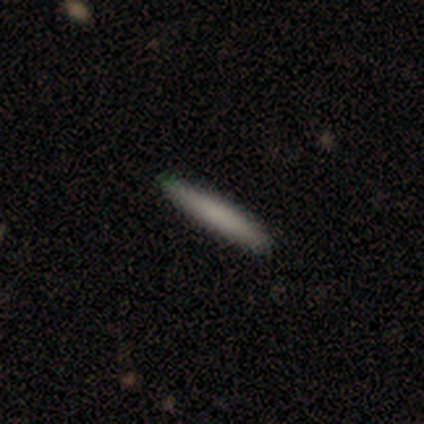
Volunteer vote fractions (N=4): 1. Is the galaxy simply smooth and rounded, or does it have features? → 75% smooth, 25% star or artifact, 0% featured or disk.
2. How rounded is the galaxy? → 100% cigar-shaped, 0% round, 0% in between.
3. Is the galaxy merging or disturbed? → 100% none, 0% minor disturbance, 0% major disturbance, 0% merger.